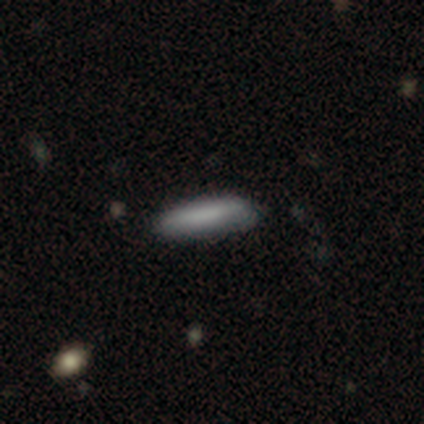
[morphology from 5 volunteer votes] smooth-or-featured: smooth: 80% | featured or disk: 20% | star or artifact: 0%
  how-rounded: cigar-shaped: 100% | round: 0% | in between: 0%
  merging: none: 100% | minor disturbance: 0% | major disturbance: 0% | merger: 0%